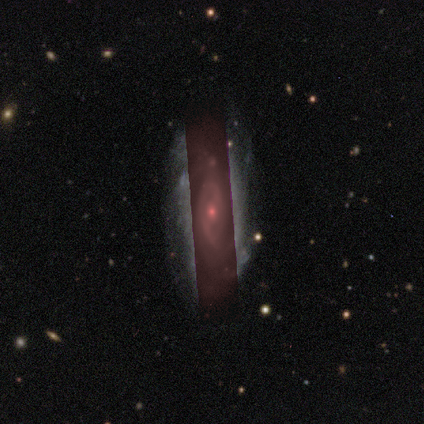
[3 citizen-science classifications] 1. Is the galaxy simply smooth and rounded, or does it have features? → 67% featured or disk, 33% star or artifact, 0% smooth.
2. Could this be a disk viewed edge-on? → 100% no, 0% yes.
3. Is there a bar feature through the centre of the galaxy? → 100% weak, 0% strong, 0% no.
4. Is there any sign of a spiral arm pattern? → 50% yes (tied), 50% no (tied).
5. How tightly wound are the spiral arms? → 100% medium, 0% tight, 0% loose.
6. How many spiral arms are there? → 100% 2, 0% 1, 0% 3, 0% 4, 0% more than 4, 0% can't tell.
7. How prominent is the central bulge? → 50% dominant (tied), 50% small (tied), 0% large, 0% moderate, 0% none.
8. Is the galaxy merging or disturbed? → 50% none (tied), 50% major disturbance (tied), 0% minor disturbance, 0% merger.